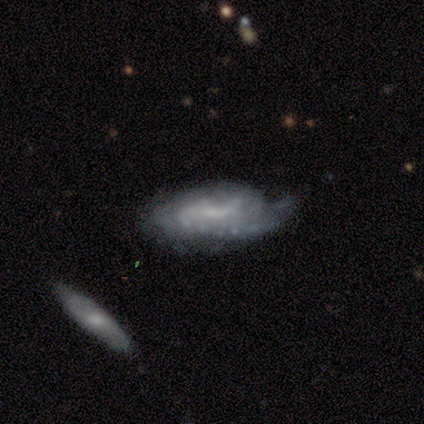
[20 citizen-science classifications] Q: Smooth or featured?
A: featured or disk (80%); runner-up: smooth (15%)
Q: Edge-on disk?
A: no (94%); runner-up: yes (6%)
Q: Bar?
A: no (60%); runner-up: weak (40%)
Q: Spiral arms?
A: yes (60%); runner-up: no (40%)
Q: Spiral winding?
A: tight (44%); runner-up: medium (33%)
Q: Spiral arm count?
A: can't tell (56%); runner-up: 2 (44%)
Q: Bulge size?
A: small (53%); runner-up: none (27%)
Q: Merging?
A: none (47%); runner-up: minor disturbance (42%)